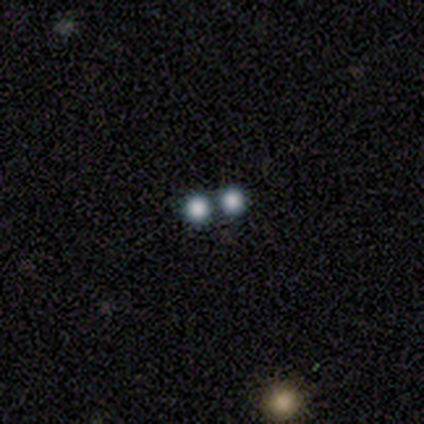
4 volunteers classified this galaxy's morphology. smooth 100%, featured or disk 0%, star or artifact 0%. Down the decision tree: how rounded — round (100%); merging — none (50%, tied with merger).